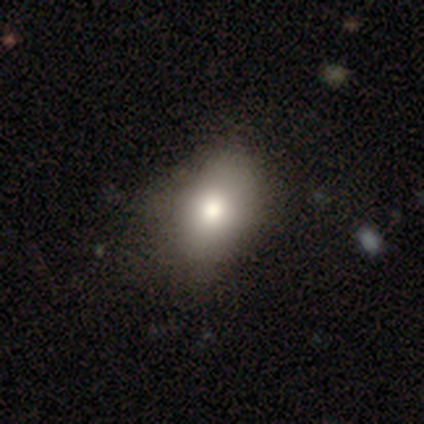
Overall: smooth (71%). How rounded: in between (100%). Merging: none (71%).